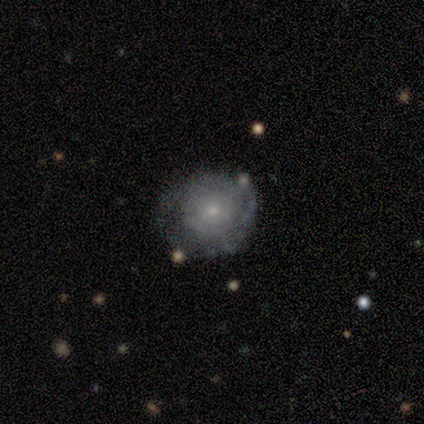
Volunteers were most divided on "spiral arms": yes: 60%, no: 40%. More confident: edge-on disk — no (100%); bar — no (100%); spiral winding — tight (100%); spiral arm count — can't tell (100%); bulge size — small (80%); smooth or featured — featured or disk (62%); merging — none (62%).